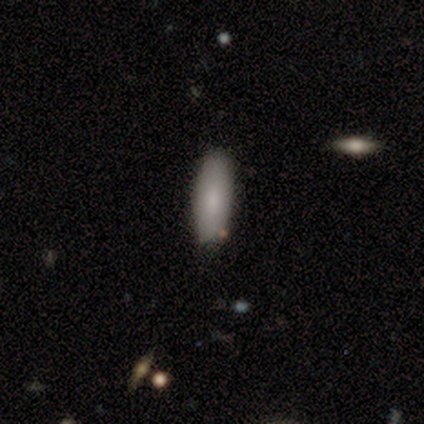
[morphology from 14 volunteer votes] Smooth or featured?
  - smooth: 86% *
  - featured or disk: 7%
  - star or artifact: 7%
How rounded?
  - in between: 50% * (tied)
  - cigar-shaped: 50% * (tied)
  - round: 0%
Merging?
  - none: 77% *
  - minor disturbance: 23%
  - major disturbance: 0%
  - merger: 0%